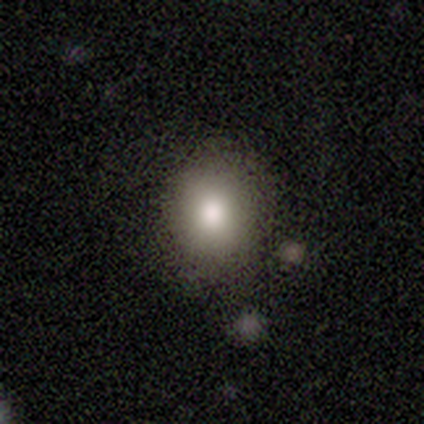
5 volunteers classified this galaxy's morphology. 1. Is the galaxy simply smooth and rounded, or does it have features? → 60% smooth, 20% featured or disk, 20% star or artifact.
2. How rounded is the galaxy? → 67% in between, 33% round, 0% cigar-shaped.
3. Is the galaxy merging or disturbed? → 100% none, 0% minor disturbance, 0% major disturbance, 0% merger.